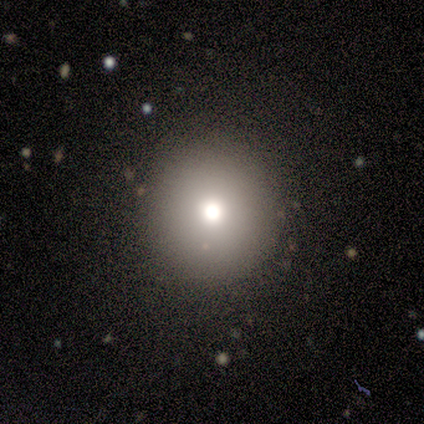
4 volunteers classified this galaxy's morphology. Smooth or featured? 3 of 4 (75%) said smooth. How rounded? 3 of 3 (100%) said round. Merging? 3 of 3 (100%) said none.